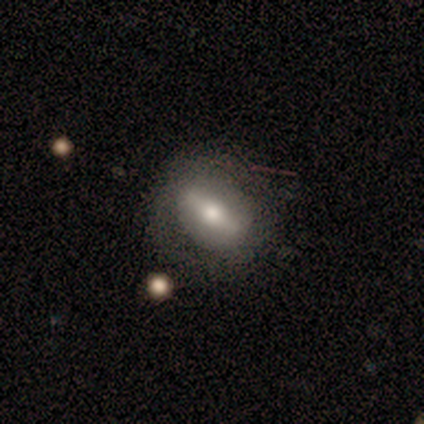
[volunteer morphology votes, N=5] Smooth or featured?
  - featured or disk: 60% *
  - smooth: 40%
  - star or artifact: 0%
Edge-on disk?
  - yes: 67% *
  - no: 33%
Edge-on bulge?
  - rounded: 100% *
  - boxy: 0%
  - none: 0%
Merging?
  - none: 60% *
  - minor disturbance: 20%
  - major disturbance: 20%
  - merger: 0%